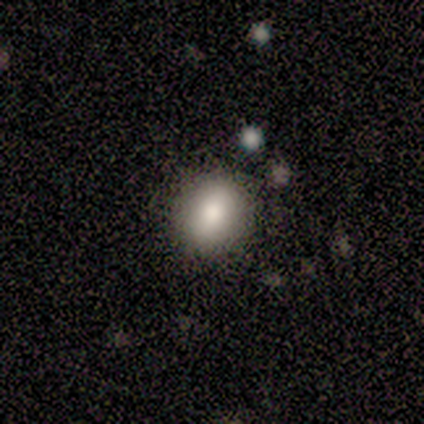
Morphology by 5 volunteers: Smooth or featured? smooth (80%)
How rounded? in between (75%)
Merging? none (75%)